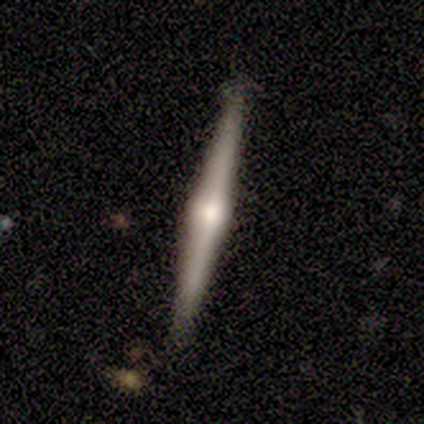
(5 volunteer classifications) Q: Smooth or featured?
A: featured or disk (80%); runner-up: smooth (20%)
Q: Edge-on disk?
A: yes (100%)
Q: Edge-on bulge?
A: rounded (100%)
Q: Merging?
A: none (80%); runner-up: minor disturbance (20%)